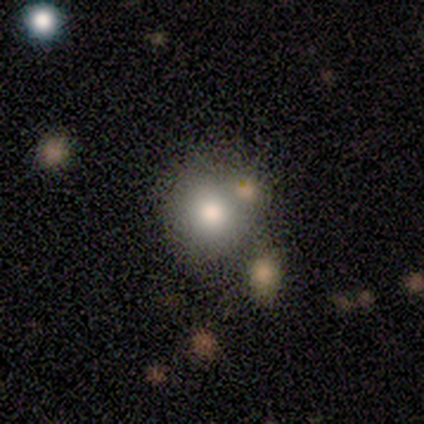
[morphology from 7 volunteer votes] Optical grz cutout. It shows a smooth galaxy with no disk features (71%) that is round (100%). Merging: none (50%).